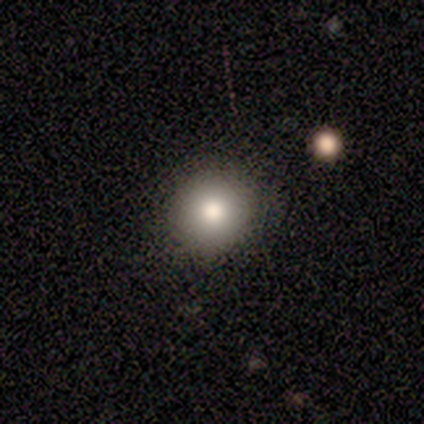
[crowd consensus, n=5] This is clearly a smooth galaxy (100%). How rounded: clearly round (100%). Merging: clearly none (100%).